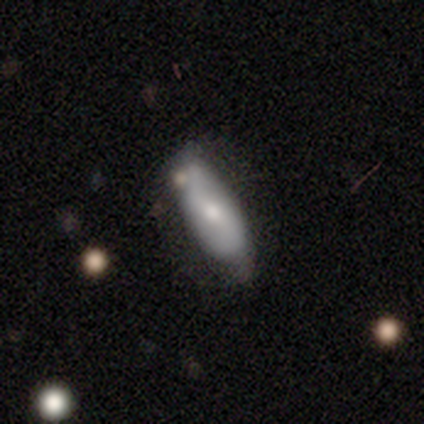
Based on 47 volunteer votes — smooth_or_featured: smooth (p=0.57) [alt: featured or disk p=0.38]
how_rounded: in between (p=0.52) [alt: cigar-shaped p=0.48]
merging: none (p=0.53) [alt: minor disturbance p=0.33]